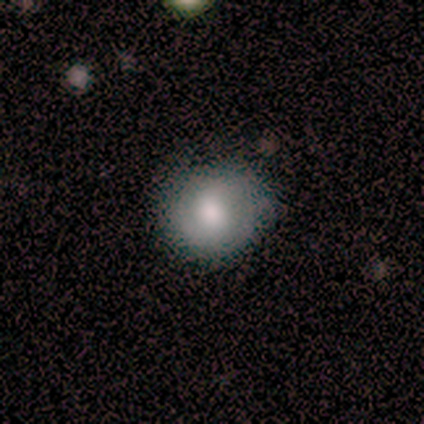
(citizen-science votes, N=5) Q: Smooth or featured?
A: smooth (80%); runner-up: featured or disk (20%)
Q: How rounded?
A: round (100%)
Q: Merging?
A: none (80%); runner-up: minor disturbance (20%)